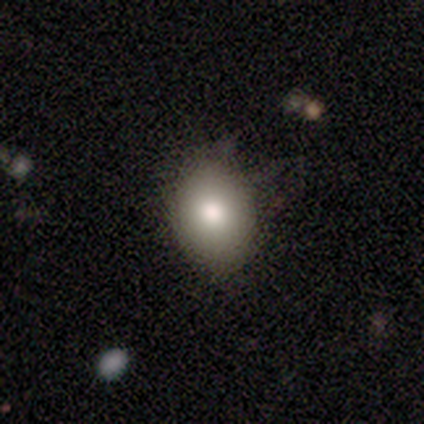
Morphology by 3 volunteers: type=smooth (100%); roundness=in between (100%); merging=none (100%).